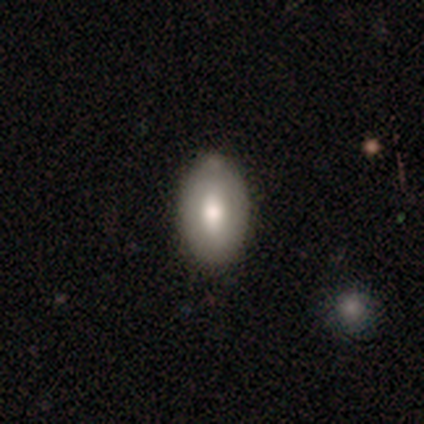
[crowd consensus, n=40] Morphology: type=smooth (78%); roundness=in between (84%); merging=none (84%).